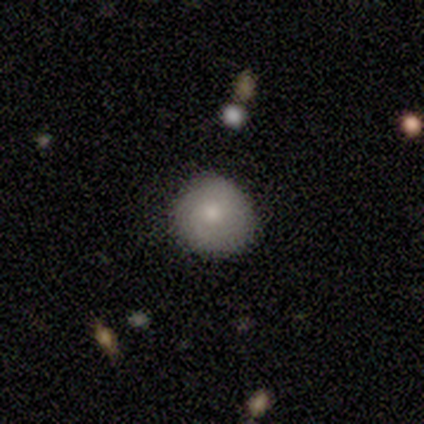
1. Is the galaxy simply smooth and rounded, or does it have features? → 80% smooth, 20% star or artifact, 0% featured or disk.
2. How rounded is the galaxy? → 100% round, 0% in between, 0% cigar-shaped.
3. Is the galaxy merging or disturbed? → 100% none, 0% minor disturbance, 0% major disturbance, 0% merger.